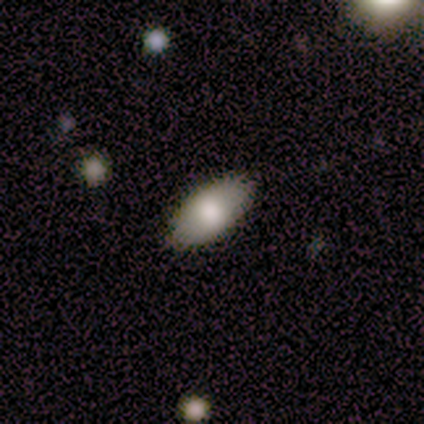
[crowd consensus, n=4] This is clearly a smooth galaxy (100%). How rounded: likely in between (75%). Merging: clearly none (100%).